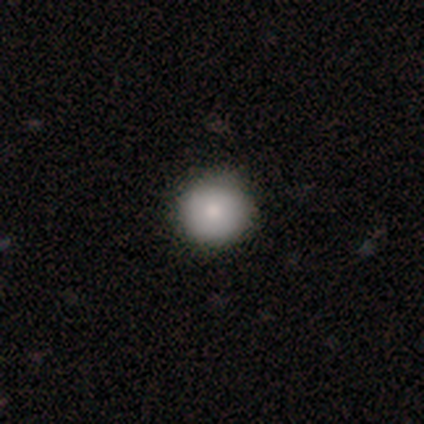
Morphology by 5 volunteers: Overall: smooth (100%). How rounded: round (100%). Merging: none (100%).